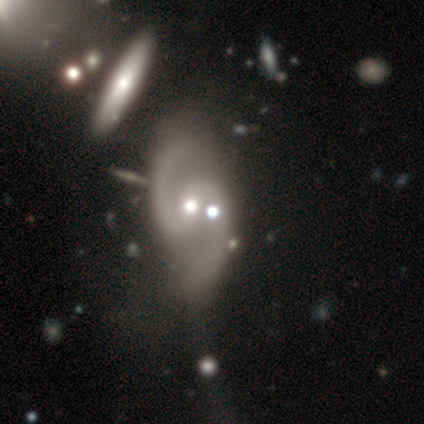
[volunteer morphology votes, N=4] smooth_or_featured: featured or disk (p=0.75) [alt: smooth p=0.25]
disk_edge_on: no (p=1.00)
bar: strong (p=0.67) [alt: weak p=0.33]
has_spiral_arms: yes (p=1.00)
spiral_winding: loose (p=0.67) [alt: medium p=0.33]
spiral_arm_count: 2 (p=0.67) [alt: 4 p=0.33]
bulge_size: large (p=0.33) [tied with: moderate p=0.33, small p=0.33]
merging: minor disturbance (p=0.50) [alt: none p=0.25]